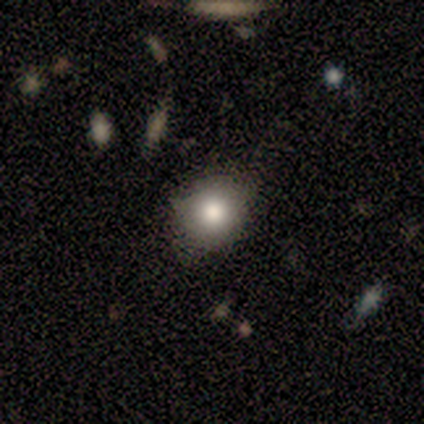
Q: Smooth or featured?
A: smooth (100%)
Q: How rounded?
A: round (100%)
Q: Merging?
A: none (60%); runner-up: minor disturbance (40%)